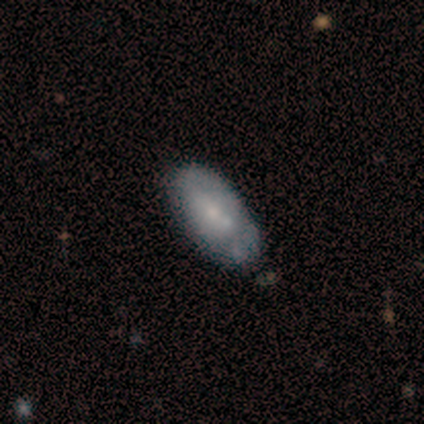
smooth_or_featured: smooth (p=0.50) [tied with: featured or disk p=0.50]
how_rounded: in between (p=1.00)
merging: none (p=0.67) [alt: minor disturbance p=0.33]